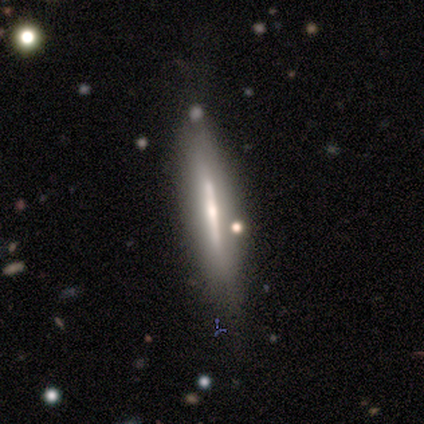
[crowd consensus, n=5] smooth_or_featured: featured or disk (p=0.80) [alt: smooth p=0.20]
disk_edge_on: yes (p=1.00)
edge_on_bulge: none (p=0.50) [tied with: rounded p=0.50]
merging: none (p=0.60) [alt: major disturbance p=0.20]